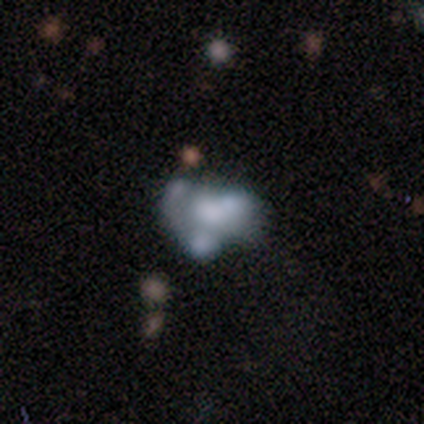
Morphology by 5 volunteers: Q: Smooth or featured?
A: smooth (60%); runner-up: featured or disk (40%)
Q: How rounded?
A: in between (100%)
Q: Merging?
A: merger (60%); runner-up: major disturbance (40%)